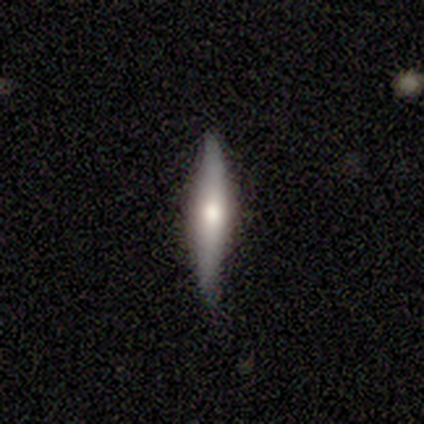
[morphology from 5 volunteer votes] This is likely a featured or disk galaxy (60%). It is clearly viewed edge-on (100%). Edge-on bulge: clearly rounded (100%). Merging: clearly none (100%).